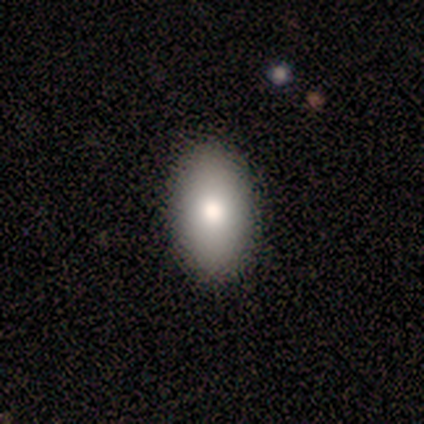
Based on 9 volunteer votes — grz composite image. It shows a smooth galaxy with no disk features (89%) that is in between round and cigar-shaped (88%). Merging: none (100%).